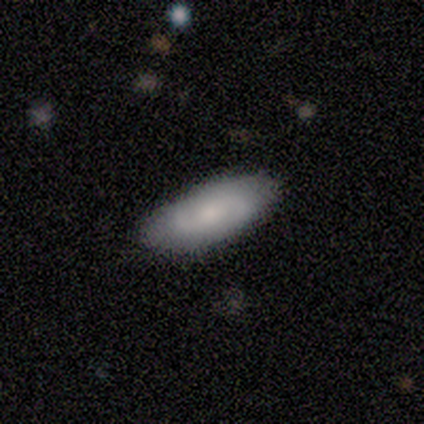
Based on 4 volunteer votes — Smooth or featured? 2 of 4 (50%) said smooth. How rounded? 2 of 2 (100%) said in between. Merging? 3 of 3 (100%) said none.